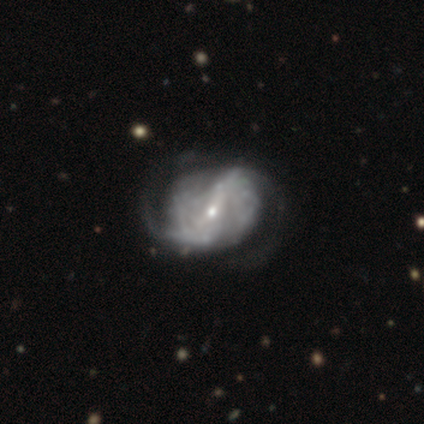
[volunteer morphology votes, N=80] This is clearly a featured or disk galaxy (92%). It is clearly not viewed edge-on (100%). Bar: possibly strong (53%). Spiral arm pattern: clearly yes (92%). Spiral arm count: likely 2 (68%). Spiral winding: marginally loose (43%). Central bulge: likely small (72%). Merging: marginally none (26%).